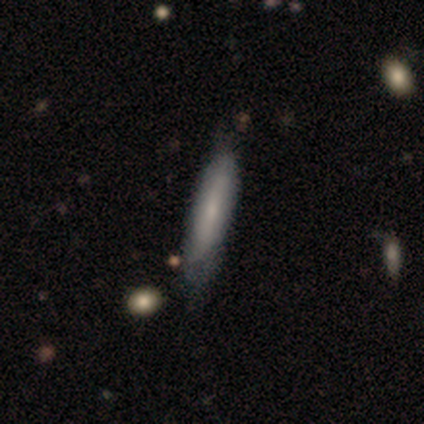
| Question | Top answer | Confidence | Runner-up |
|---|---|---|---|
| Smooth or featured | smooth | 80% | star or artifact (20%) |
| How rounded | cigar-shaped | 100% | — |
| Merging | none | 50% | tied: minor disturbance (50%) |